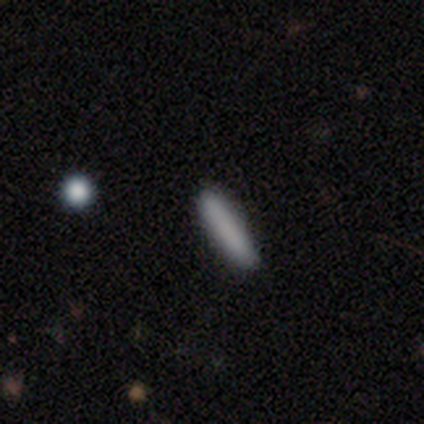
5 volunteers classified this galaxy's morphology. Smooth or featured? 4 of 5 (80%) said smooth. How rounded? 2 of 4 (50%) said cigar-shaped. Merging? 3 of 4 (75%) said none.